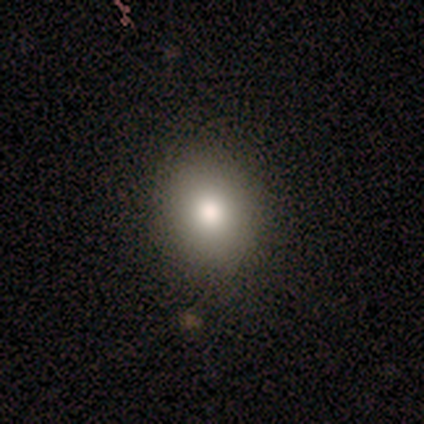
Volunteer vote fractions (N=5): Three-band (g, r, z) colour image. It shows a smooth galaxy with no disk features (80%) that is round (75%). Merging: none (100%).